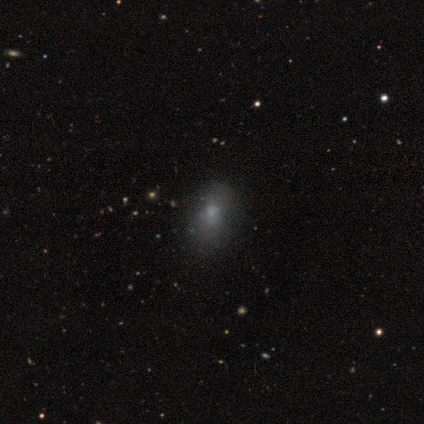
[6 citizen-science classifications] smooth-or-featured: smooth: 83% | star or artifact: 17% | featured or disk: 0%
  how-rounded: round: 40% (tied) | in between: 40% (tied) | cigar-shaped: 20%
  merging: none: 40% (tied) | minor disturbance: 40% (tied) | major disturbance: 20% | merger: 0%